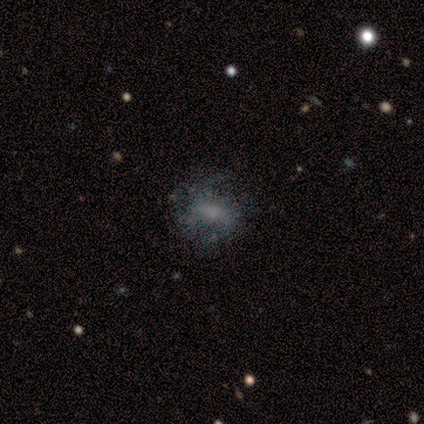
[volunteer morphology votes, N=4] A featured or disk galaxy (50%) with a weak bar (50%, tied with no), loose (100%) spiral arms (50%, tied with no) and a moderate central bulge (50%, tied with small). Merging: none (67%).